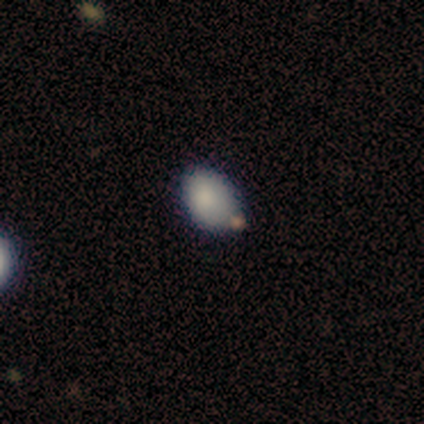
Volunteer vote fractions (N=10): This appears to be a smooth galaxy with no disk features (80%) that is in between round and cigar-shaped (88%). Merging: none (78%).